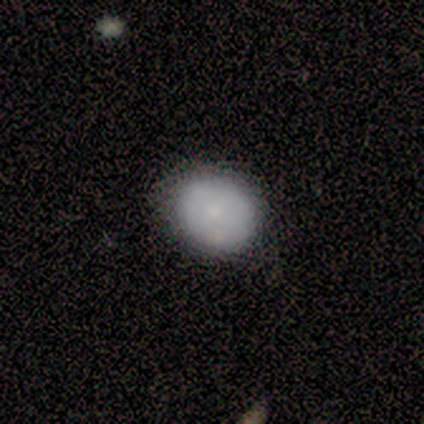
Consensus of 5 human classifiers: This is marginally a smooth galaxy (40%, tied with featured or disk). How rounded: clearly round (100%). Merging: clearly none (100%).